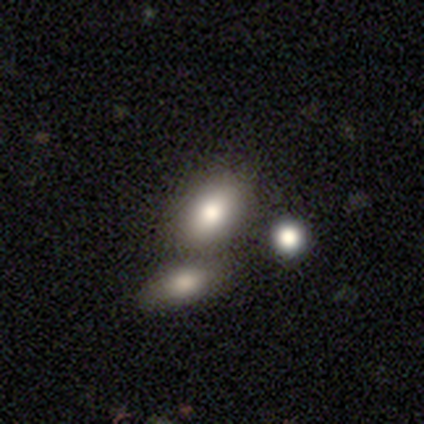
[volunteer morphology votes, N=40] A smooth galaxy with no disk features (68%) that is in between round and cigar-shaped (81%).

Vote fractions:
- Smooth or featured? smooth: 68% / featured or disk: 25% / star or artifact: 8%
- How rounded? in between: 81% / round: 11% / cigar-shaped: 7%
- Merging? none: 57% / merger: 38% / minor disturbance: 3% / major disturbance: 3%